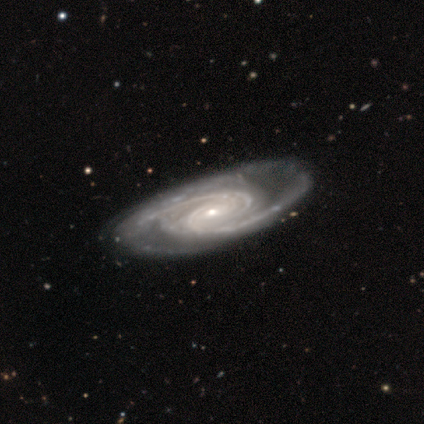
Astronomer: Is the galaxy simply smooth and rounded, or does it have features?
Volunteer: featured or disk — 83%.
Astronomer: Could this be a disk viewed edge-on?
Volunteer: no — 80%.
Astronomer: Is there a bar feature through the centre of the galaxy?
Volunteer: no — 62%.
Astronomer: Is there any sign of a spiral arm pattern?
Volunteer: yes — 100%.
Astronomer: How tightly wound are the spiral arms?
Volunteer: tight — 50%, tied with medium at 50%.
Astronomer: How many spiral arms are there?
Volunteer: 2 — 62%.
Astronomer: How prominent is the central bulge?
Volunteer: small — 62%.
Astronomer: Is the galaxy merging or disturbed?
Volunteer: none — 82%.